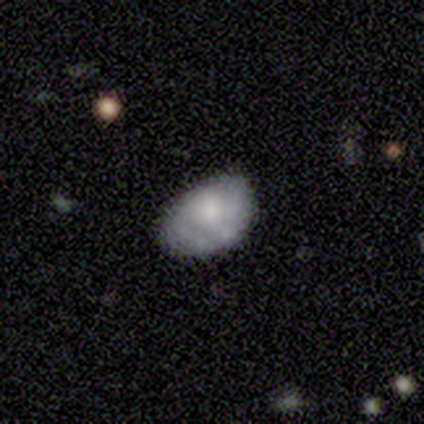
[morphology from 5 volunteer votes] Smooth or featured? featured or disk (60%)
Edge-on disk? no (100%)
Bar? no (100%)
Spiral arms? no (67%)
Bulge size? small (67%)
Merging? none (100%)